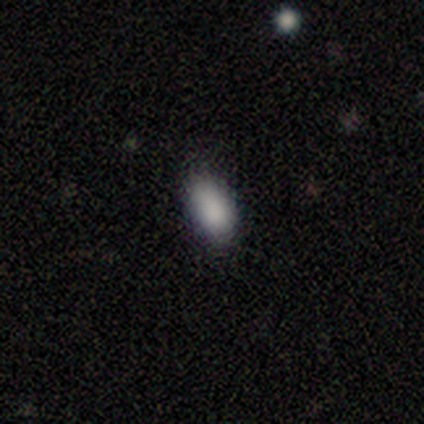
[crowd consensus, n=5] A smooth galaxy with no disk features (80%) that is in between round and cigar-shaped (75%).

Vote fractions:
- Smooth or featured? smooth: 80% / star or artifact: 20% / featured or disk: 0%
- How rounded? in between: 75% / round: 25% / cigar-shaped: 0%
- Merging? none: 75% / minor disturbance: 25% / major disturbance: 0% / merger: 0%